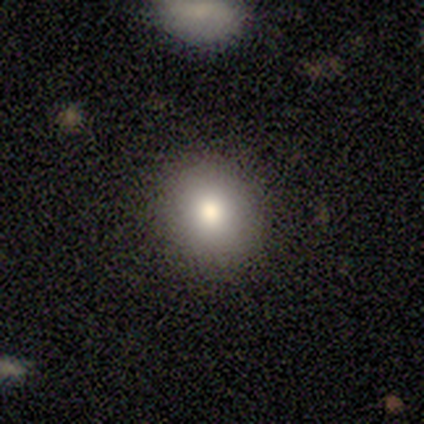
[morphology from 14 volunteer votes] Smooth or featured: smooth — 71% (star or artifact — 21%)
How rounded: round — 60% (in between — 40%)
Merging: none — 91% (minor disturbance — 9%)